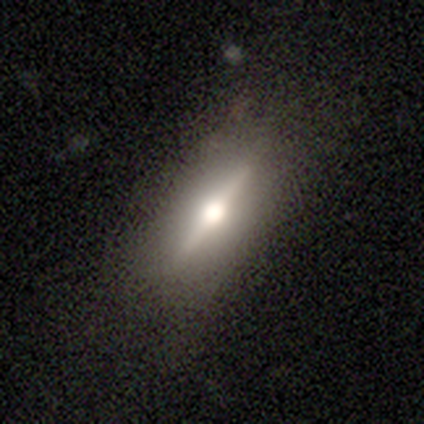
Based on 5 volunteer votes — Q: Smooth or featured?
A: featured or disk (80%); runner-up: star or artifact (20%)
Q: Edge-on disk?
A: yes (100%)
Q: Edge-on bulge?
A: rounded (100%)
Q: Merging?
A: none (100%)